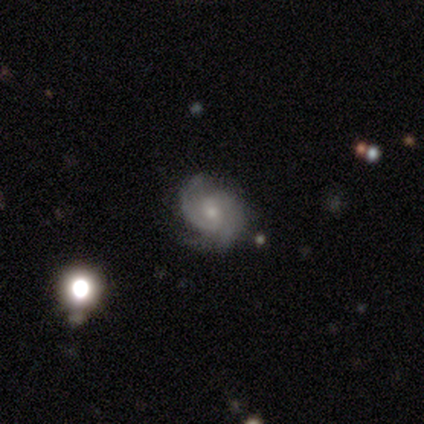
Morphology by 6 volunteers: featured or disk 100%, smooth 0%, star or artifact 0%. Down the decision tree: edge-on disk — no (100%); bar — no (83%); spiral arms — yes (100%); spiral arm count — 2 (50%); spiral winding — tight (50%); bulge size — small (67%); merging — none (83%).